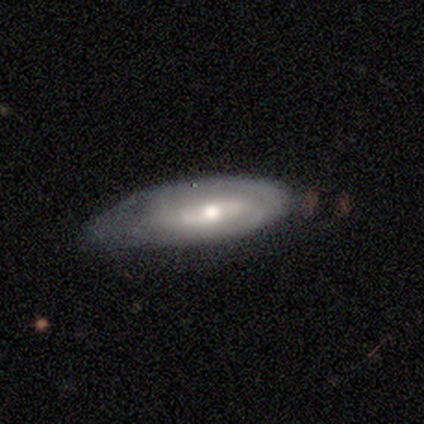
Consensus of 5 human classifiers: Smooth or featured: featured or disk — 80% (smooth — 20%)
Edge-on disk: no — 100%
Bar: weak — 50% (tied with no — 50%)
Spiral arms: yes — 50% (tied with no — 50%)
Spiral winding: medium — 50% (tied with loose — 50%)
Spiral arm count: 2 — 100%
Bulge size: small — 75% (moderate — 25%)
Merging: none — 60% (major disturbance — 40%)